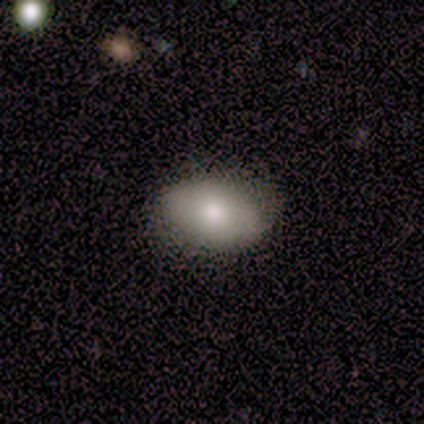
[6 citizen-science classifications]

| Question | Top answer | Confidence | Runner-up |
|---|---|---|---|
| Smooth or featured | smooth | 100% | — |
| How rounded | in between | 100% | — |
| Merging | none | 100% | — |